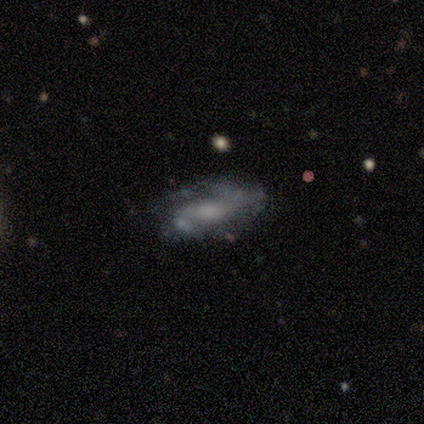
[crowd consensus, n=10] smooth-or-featured: featured or disk: 90% | star or artifact: 10% | smooth: 0%
  disk-edge-on: no: 100% | yes: 0%
    bar: no: 78% | weak: 22% | strong: 0%
    has-spiral-arms: yes: 89% | no: 11%
      spiral-winding: medium: 50% | loose: 38% | tight: 12%
      spiral-arm-count: 2: 75% | can't tell: 25% | 1: 0% | 3: 0% | 4: 0% | more than 4: 0%
    bulge-size: small: 56% | moderate: 33% | large: 11% | dominant: 0% | none: 0%
  merging: none: 56% | minor disturbance: 33% | major disturbance: 11% | merger: 0%